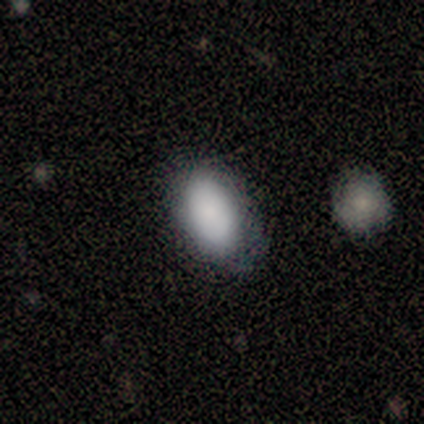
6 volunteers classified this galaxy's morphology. type=smooth (83%); roundness=in between (80%); merging=none (67%).